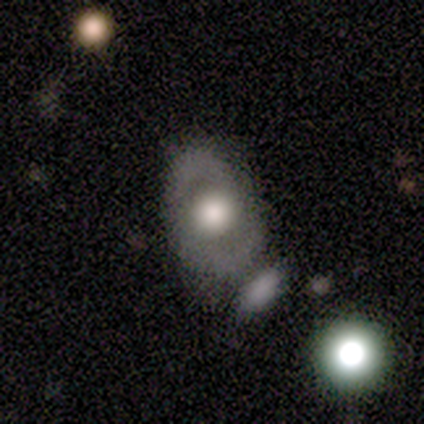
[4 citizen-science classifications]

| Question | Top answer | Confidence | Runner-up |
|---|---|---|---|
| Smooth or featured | featured or disk | 50% | smooth (25%) |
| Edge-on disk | no | 100% | — |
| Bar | no | 100% | — |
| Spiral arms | no | 100% | — |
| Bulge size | large | 100% | — |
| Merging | none | 33% | tied: major disturbance (33%), merger (33%) |